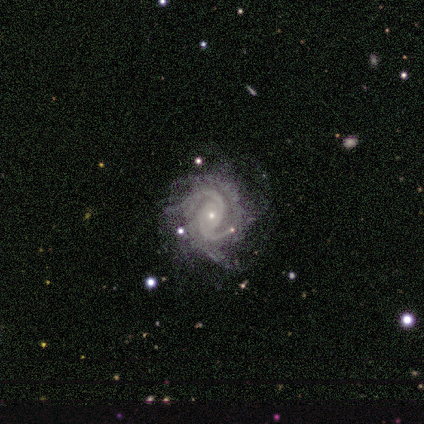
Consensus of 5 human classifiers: Overall: featured or disk (100%). Edge-on disk: no (100%). Bar: no (100%). Spiral arms: yes (100%). Spiral arm count: 2 (40%; 3 20%). Spiral winding: tight (40%, tied with loose). Bulge size: small (80%). Merging: none (80%).